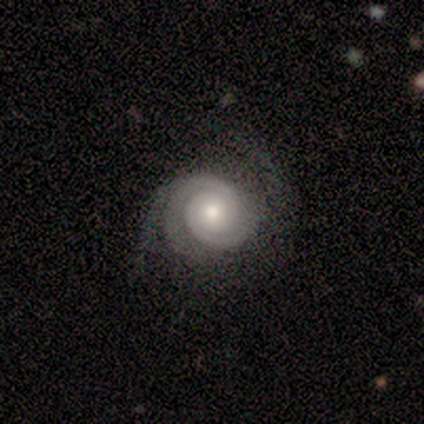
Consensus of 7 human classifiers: Q: Smooth or featured?
A: featured or disk (100%)
Q: Edge-on disk?
A: no (100%)
Q: Bar?
A: no (71%); runner-up: weak (29%)
Q: Spiral arms?
A: yes (100%)
Q: Spiral winding?
A: tight (57%); runner-up: medium (43%)
Q: Spiral arm count?
A: 2 (43%); tied with: can't tell (43%)
Q: Bulge size?
A: moderate (57%); runner-up: small (43%)
Q: Merging?
A: none (86%); runner-up: minor disturbance (14%)